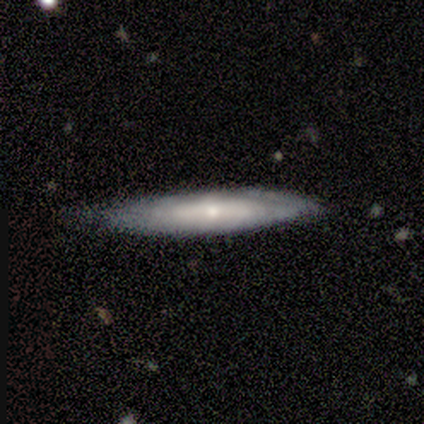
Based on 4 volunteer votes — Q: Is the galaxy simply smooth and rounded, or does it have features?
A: featured or disk — 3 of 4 (75%).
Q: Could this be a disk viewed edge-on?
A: yes — 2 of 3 (67%).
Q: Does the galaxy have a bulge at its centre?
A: rounded — 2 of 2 (100%).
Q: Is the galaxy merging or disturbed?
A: none — 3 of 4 (75%).